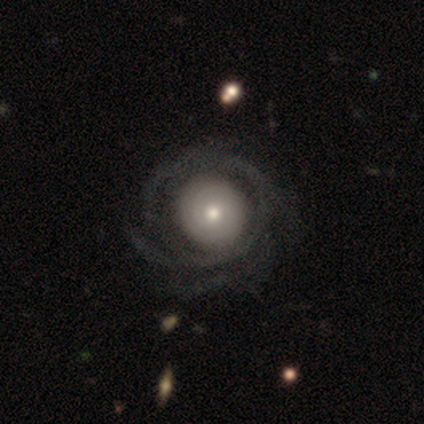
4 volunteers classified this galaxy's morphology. type=featured or disk (100%); edge-on=no (100%); bar=no (100%); spiral arms=yes (75%); winding=tight (100%); arm count=1 (33%, tied with more than 4 and can't tell); bulge=moderate (50%, tied with small); merging=major disturbance (50%).